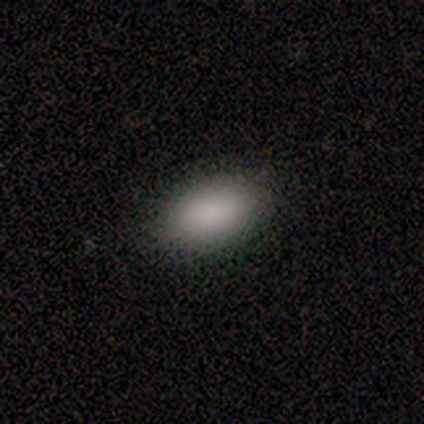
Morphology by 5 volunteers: Smooth or featured?
  - smooth: 100% *
  - featured or disk: 0%
  - star or artifact: 0%
How rounded?
  - in between: 100% *
  - round: 0%
  - cigar-shaped: 0%
Merging?
  - none: 100% *
  - minor disturbance: 0%
  - major disturbance: 0%
  - merger: 0%